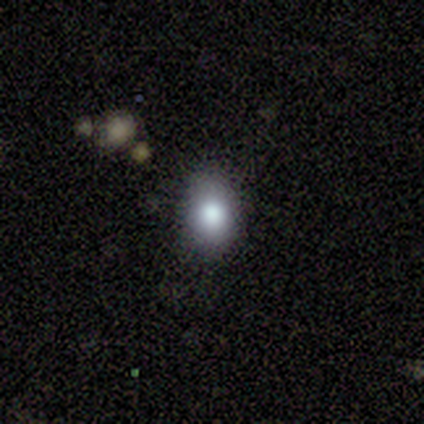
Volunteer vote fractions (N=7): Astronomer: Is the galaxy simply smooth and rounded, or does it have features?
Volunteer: smooth — 86%.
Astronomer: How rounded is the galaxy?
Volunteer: round — 50%, tied with in between at 50%.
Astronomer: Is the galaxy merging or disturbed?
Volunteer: none — 67%.